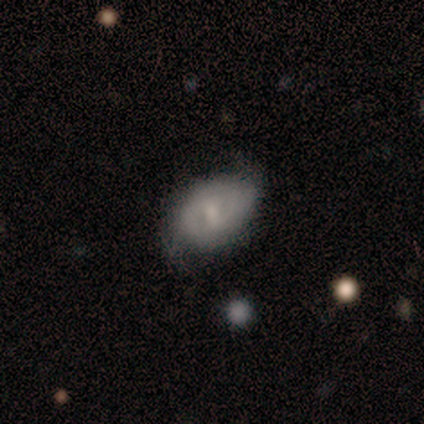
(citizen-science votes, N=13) A featured or disk galaxy (54%) with a weak bar (57%), 2 (60%) medium (80%) spiral arms (71%) and a small central bulge (57%). Merging: none (69%).